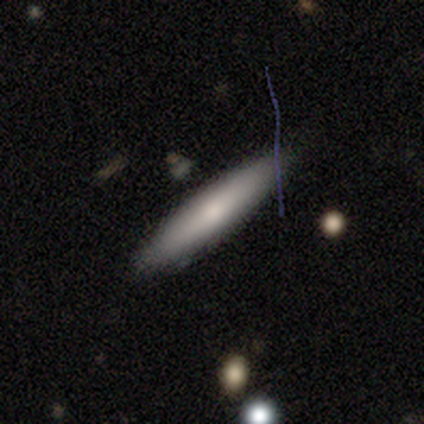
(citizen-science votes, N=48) smooth_or_featured: smooth (p=0.60) [alt: featured or disk p=0.31]
how_rounded: cigar-shaped (p=0.86) [alt: in between p=0.14]
merging: none (p=0.86) [alt: minor disturbance p=0.11]